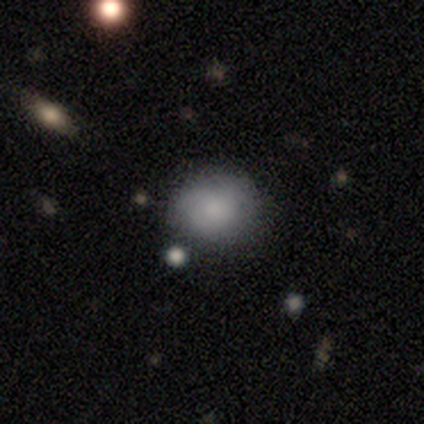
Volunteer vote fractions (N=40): Volunteers were most divided on "smooth or featured": smooth: 68%, featured or disk: 20%, star or artifact: 12%. More confident: merging — none (80%); how rounded — round (78%).